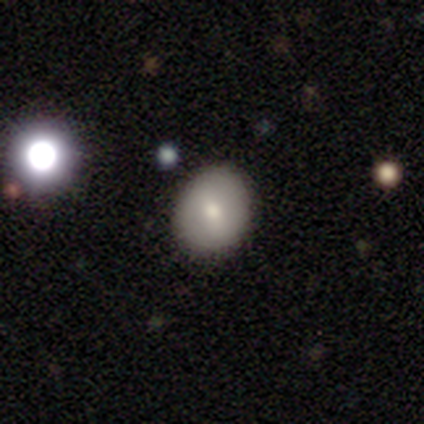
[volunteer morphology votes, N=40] Smooth or featured? smooth (72%)
How rounded? round (69%)
Merging? none (97%)